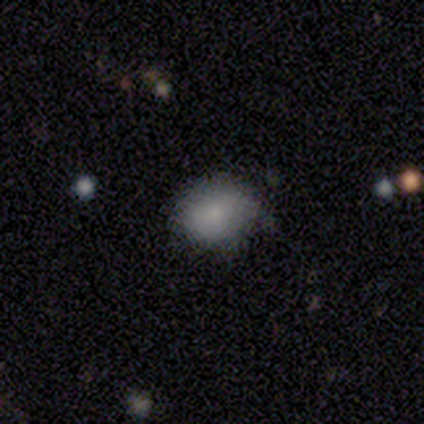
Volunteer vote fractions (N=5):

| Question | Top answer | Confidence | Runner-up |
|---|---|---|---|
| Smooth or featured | smooth | 80% | star or artifact (20%) |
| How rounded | round | 50% | tied: in between (50%) |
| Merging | none | 75% | minor disturbance (25%) |